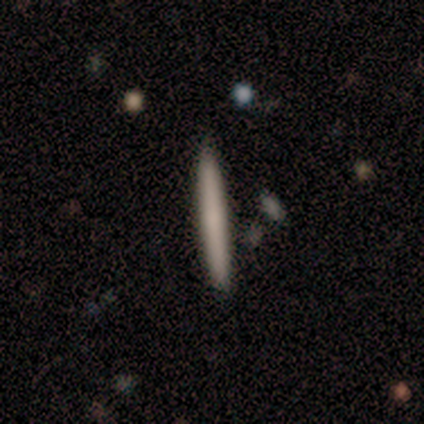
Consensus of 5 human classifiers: Overall: smooth (100%). How rounded: cigar-shaped (80%). Merging: none (80%).